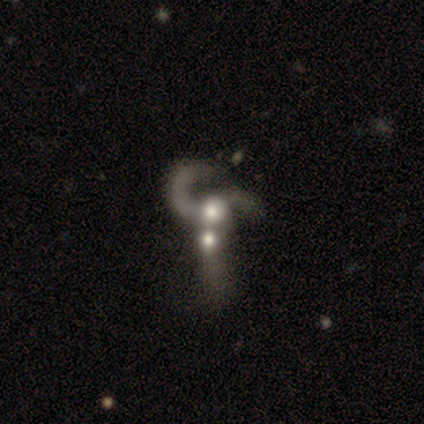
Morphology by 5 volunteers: Overall: featured or disk (100%). Edge-on disk: no (100%). Bar: no (80%). Spiral arms: yes (80%). Spiral arm count: 2 (50%; 1 25%). Spiral winding: loose (75%). Bulge size: moderate (60%; dominant 20%). Merging: merger (80%).